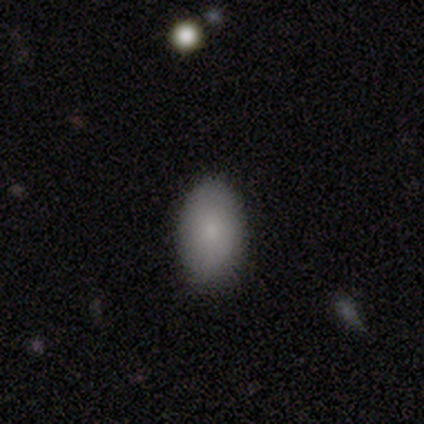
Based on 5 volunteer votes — Q: Smooth or featured?
A: smooth (80%); runner-up: featured or disk (20%)
Q: How rounded?
A: in between (75%); runner-up: round (25%)
Q: Merging?
A: none (80%); runner-up: minor disturbance (20%)